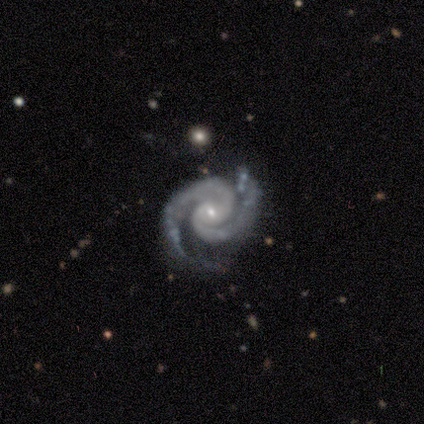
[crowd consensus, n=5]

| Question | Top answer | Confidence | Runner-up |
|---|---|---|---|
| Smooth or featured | featured or disk | 100% | — |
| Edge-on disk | no | 100% | — |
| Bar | weak | 60% | no (40%) |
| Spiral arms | yes | 100% | — |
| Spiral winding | medium | 60% | tight (40%) |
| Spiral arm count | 2 | 100% | — |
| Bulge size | small | 80% | moderate (20%) |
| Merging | none | 80% | minor disturbance (20%) |